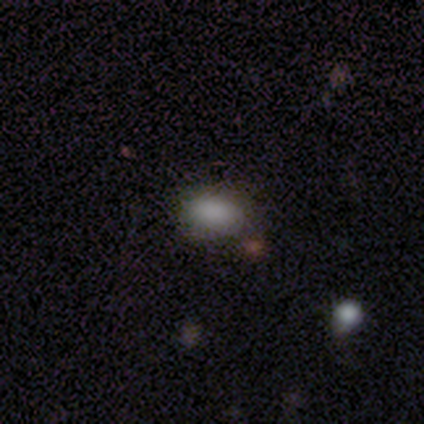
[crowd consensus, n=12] Morphology: type=smooth (92%); roundness=in between (100%); merging=none (100%).